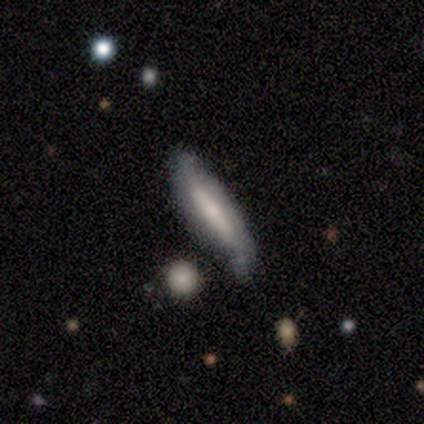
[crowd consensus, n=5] Smooth or featured? 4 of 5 (80%) said featured or disk. Edge-on disk? 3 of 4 (75%) said no. Bar? 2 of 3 (67%) said strong. Spiral arms? 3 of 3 (100%) said yes. Spiral winding? 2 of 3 (67%) said loose. Spiral arm count? 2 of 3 (67%) said 2. Bulge size? 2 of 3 (67%) said small. Merging? 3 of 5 (60%) said none.